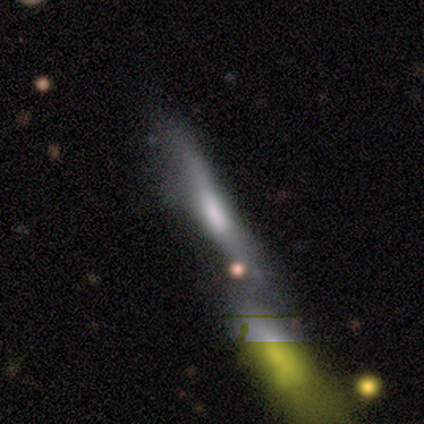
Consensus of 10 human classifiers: This appears to be a smooth galaxy with no disk features (40%, tied with featured or disk) that is cigar-shaped (75%). Merging: merger (38%).